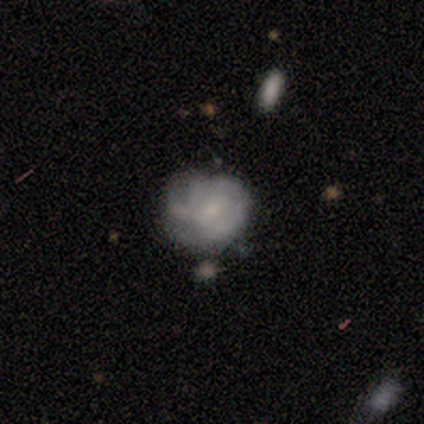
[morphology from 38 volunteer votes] type=featured or disk (71%); edge-on=no (93%); bar=no (80%); spiral arms=yes (52%); winding=tight (62%); arm count=can't tell (77%); bulge=small (64%); merging=none (31%).